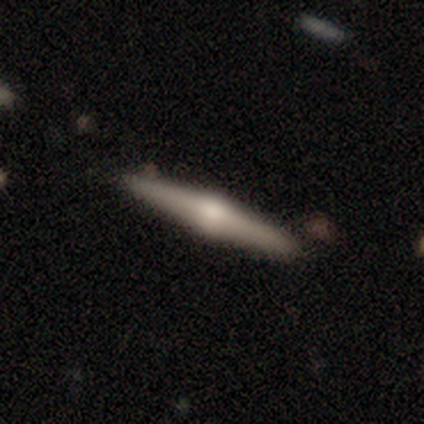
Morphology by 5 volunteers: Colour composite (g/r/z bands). It shows a featured or disk galaxy (60%) viewed edge-on (100%) with a rounded central bulge (100%). Merging: none (100%).